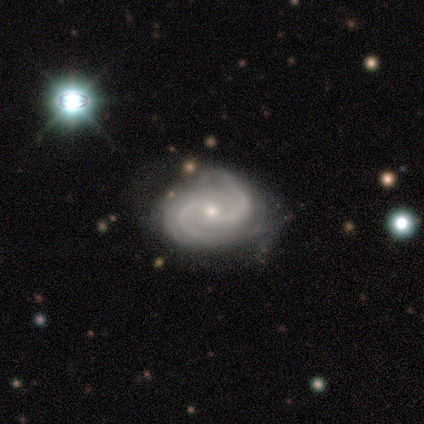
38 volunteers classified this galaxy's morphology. A featured or disk galaxy (97%) with no bar (50%), 2 (67%) medium (53%) spiral arms (100%) and a small central bulge (64%).

Vote fractions:
- Smooth or featured? featured or disk: 97% / star or artifact: 3% / smooth: 0%
- Edge-on disk? no: 97% / yes: 3%
- Bar? no: 50% / weak: 44% / strong: 6%
- Spiral arms? yes: 100% / no: 0%
- Spiral winding? medium: 53% / tight: 39% / loose: 8%
- Spiral arm count? 2: 67% / 3: 17% / 4: 8% / can't tell: 8% / 1: 0% / more than 4: 0%
- Bulge size? small: 64% / moderate: 36% / dominant: 0% / large: 0% / none: 0%
- Merging? none: 70% / minor disturbance: 16% / merger: 8% / major disturbance: 5%